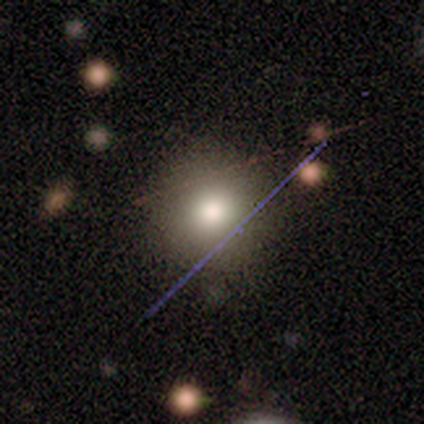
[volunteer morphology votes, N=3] smooth-or-featured: smooth: 67% | featured or disk: 33% | star or artifact: 0%
  how-rounded: round: 100% | in between: 0% | cigar-shaped: 0%
  merging: none: 100% | minor disturbance: 0% | major disturbance: 0% | merger: 0%